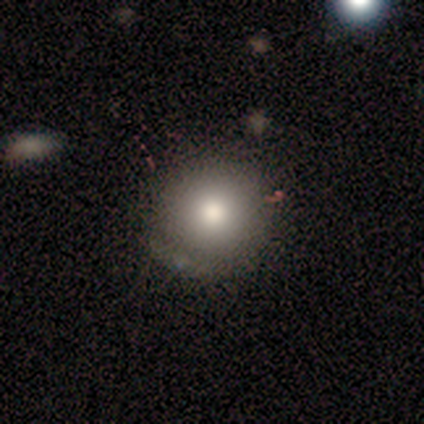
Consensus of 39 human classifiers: smooth-or-featured: smooth: 72% | featured or disk: 18% | star or artifact: 10%
  how-rounded: round: 93% | in between: 7% | cigar-shaped: 0%
  merging: none: 69% | minor disturbance: 23% | major disturbance: 9% | merger: 0%